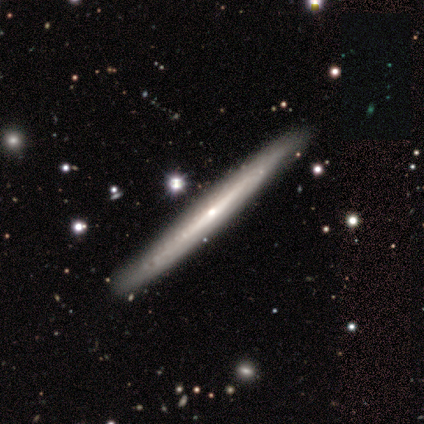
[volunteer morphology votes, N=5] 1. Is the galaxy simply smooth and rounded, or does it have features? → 60% featured or disk, 40% smooth, 0% star or artifact.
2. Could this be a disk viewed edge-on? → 100% yes, 0% no.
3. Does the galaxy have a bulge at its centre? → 33% boxy (tied), 33% none (tied), 33% rounded (tied).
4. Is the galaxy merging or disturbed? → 100% none, 0% minor disturbance, 0% major disturbance, 0% merger.